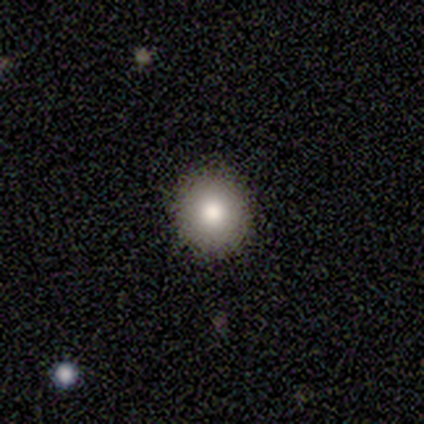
Smooth or featured?
  - smooth: 60% *
  - star or artifact: 40%
  - featured or disk: 0%
How rounded?
  - round: 67% *
  - in between: 33%
  - cigar-shaped: 0%
Merging?
  - none: 100% *
  - minor disturbance: 0%
  - major disturbance: 0%
  - merger: 0%